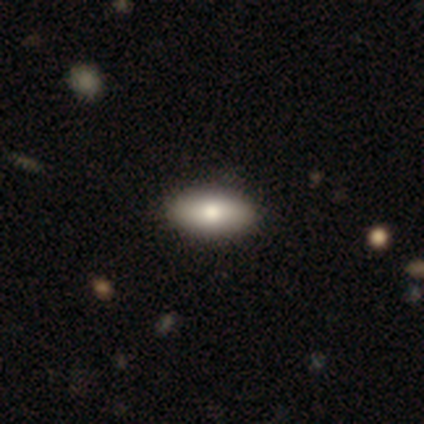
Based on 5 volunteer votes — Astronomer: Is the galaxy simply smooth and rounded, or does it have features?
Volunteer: smooth — 80%.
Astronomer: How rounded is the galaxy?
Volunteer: in between — 100%.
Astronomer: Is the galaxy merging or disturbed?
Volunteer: none — 100%.